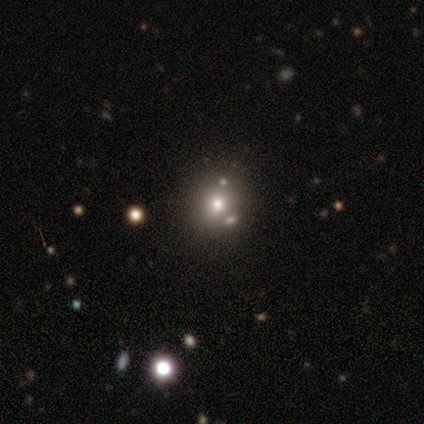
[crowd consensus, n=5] smooth-or-featured: smooth: 60% | star or artifact: 40% | featured or disk: 0%
  how-rounded: round: 100% | in between: 0% | cigar-shaped: 0%
  merging: none: 100% | minor disturbance: 0% | major disturbance: 0% | merger: 0%